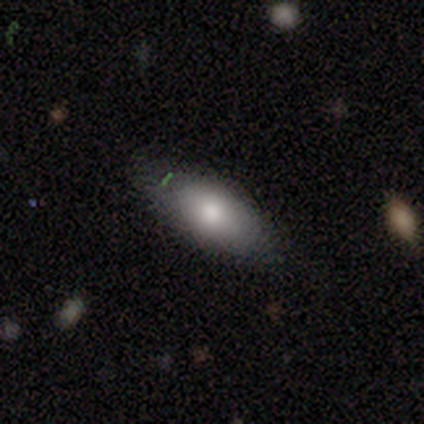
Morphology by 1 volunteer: smooth 100%, featured or disk 0%, star or artifact 0%. Down the decision tree: how rounded — in between (100%); merging — none (100%).